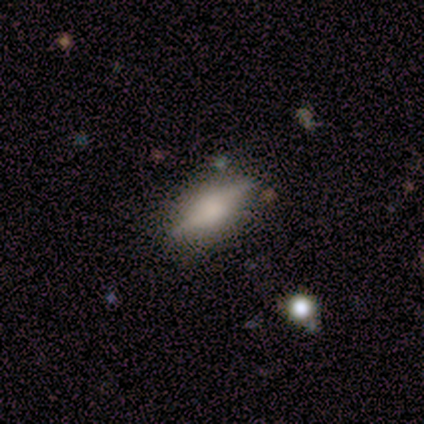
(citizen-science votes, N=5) Smooth or featured: smooth — 60% (featured or disk — 40%)
How rounded: in between — 67% (cigar-shaped — 33%)
Merging: none — 80% (minor disturbance — 20%)